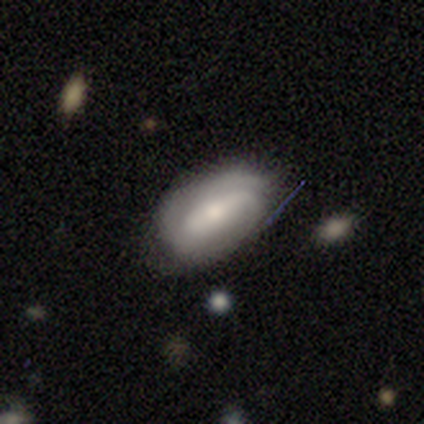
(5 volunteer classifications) This appears to be a featured or disk galaxy (60%) with a weak bar (67%), 1 (33%, tied with 2 and can't tell) medium (67%) spiral arms (100%) and a small central bulge (67%). Merging: none (80%).